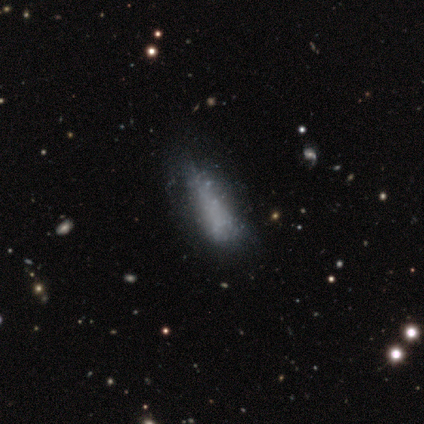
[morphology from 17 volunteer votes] smooth 47%, featured or disk 35%, star or artifact 18%. Down the decision tree: how rounded — in between (50%, tied with cigar-shaped); merging — none (64%).